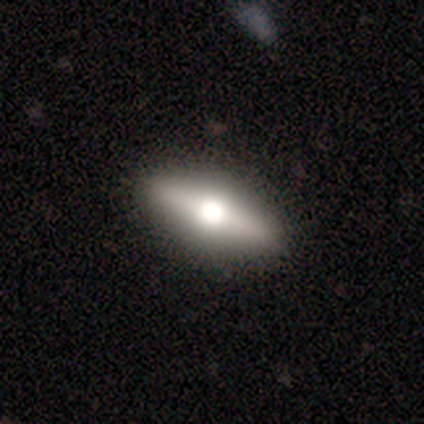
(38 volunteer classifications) Smooth or featured: featured or disk — 61% (smooth — 34%)
Edge-on disk: yes — 87% (no — 13%)
Edge-on bulge: rounded — 100%
Merging: none — 92% (minor disturbance — 6%)